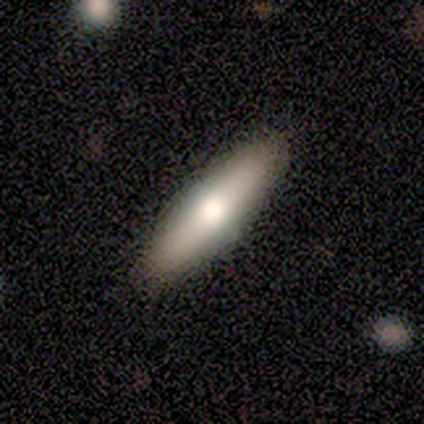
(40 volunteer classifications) Volunteers were most divided on "smooth or featured": smooth: 75%, featured or disk: 22%, star or artifact: 2%. More confident: how rounded — cigar-shaped (87%); merging — none (56%).